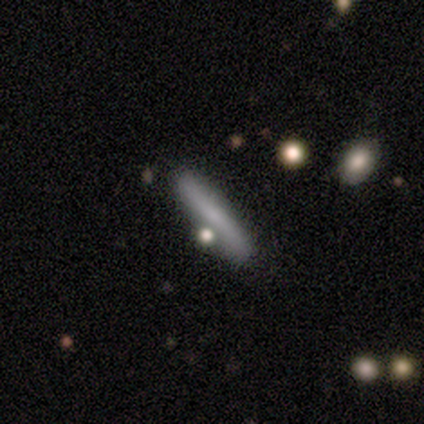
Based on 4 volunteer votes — This appears to be a smooth galaxy with no disk features (100%) that is cigar-shaped (100%). Merging: none (75%).